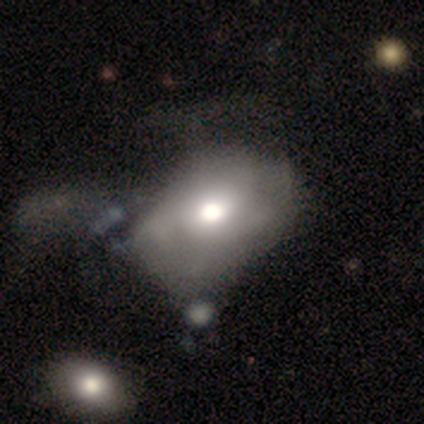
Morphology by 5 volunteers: Smooth or featured: smooth — 40% (tied with featured or disk — 40%)
How rounded: round — 50% (tied with in between — 50%)
Merging: major disturbance — 50% (minor disturbance — 25%)